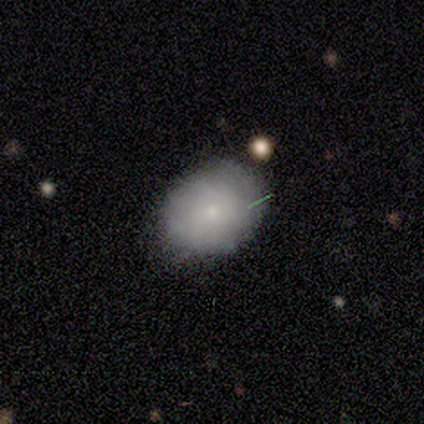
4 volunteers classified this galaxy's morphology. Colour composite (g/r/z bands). It shows a smooth galaxy with no disk features (50%, tied with featured or disk) that is round (100%). Merging: none (100%).